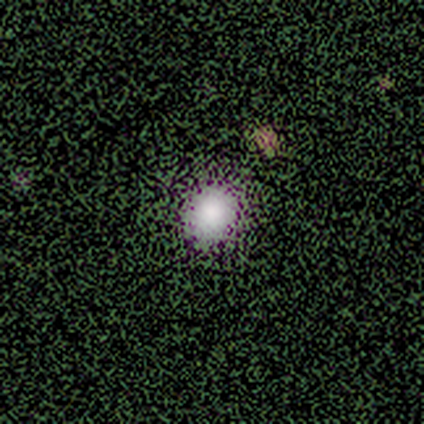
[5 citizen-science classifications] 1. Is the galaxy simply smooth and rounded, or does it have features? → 60% smooth, 20% featured or disk, 20% star or artifact.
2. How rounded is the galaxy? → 67% round, 33% in between, 0% cigar-shaped.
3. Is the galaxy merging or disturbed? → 100% none, 0% minor disturbance, 0% major disturbance, 0% merger.